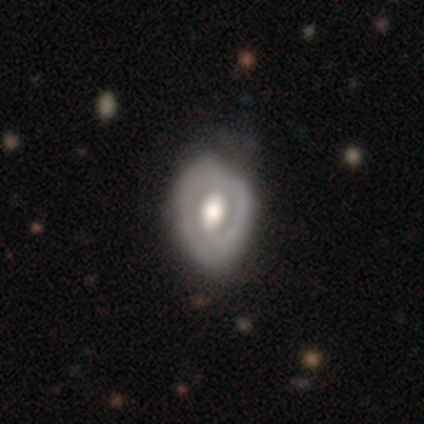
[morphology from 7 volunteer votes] Q: Smooth or featured?
A: featured or disk (100%)
Q: Edge-on disk?
A: no (100%)
Q: Bar?
A: no (57%); runner-up: strong (29%)
Q: Spiral arms?
A: no (86%); runner-up: yes (14%)
Q: Bulge size?
A: moderate (57%); runner-up: large (43%)
Q: Merging?
A: minor disturbance (71%); runner-up: none (29%)